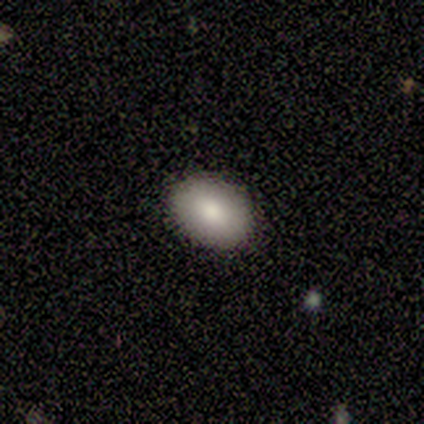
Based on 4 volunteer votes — smooth-or-featured: smooth: 100% | featured or disk: 0% | star or artifact: 0%
  how-rounded: in between: 75% | round: 25% | cigar-shaped: 0%
  merging: none: 100% | minor disturbance: 0% | major disturbance: 0% | merger: 0%